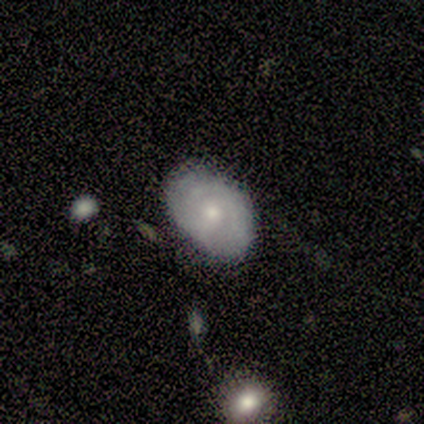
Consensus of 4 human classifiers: Q: Smooth or featured?
A: featured or disk (75%); runner-up: smooth (25%)
Q: Edge-on disk?
A: no (67%); runner-up: yes (33%)
Q: Bar?
A: weak (50%); tied with: no (50%)
Q: Spiral arms?
A: yes (50%); tied with: no (50%)
Q: Spiral winding?
A: medium (100%)
Q: Spiral arm count?
A: 3 (100%)
Q: Bulge size?
A: moderate (50%); tied with: small (50%)
Q: Merging?
A: minor disturbance (50%); runner-up: none (25%)